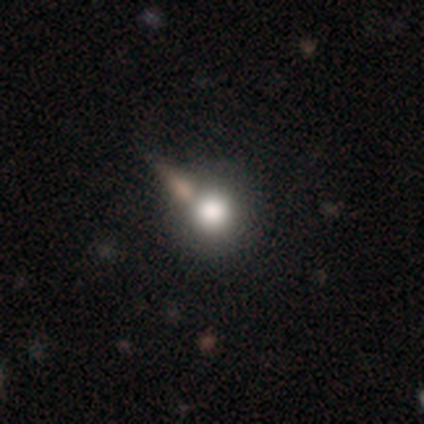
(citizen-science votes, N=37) Smooth or featured? 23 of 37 (62%) said smooth. How rounded? 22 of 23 (96%) said round. Merging? 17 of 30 (57%) said none.